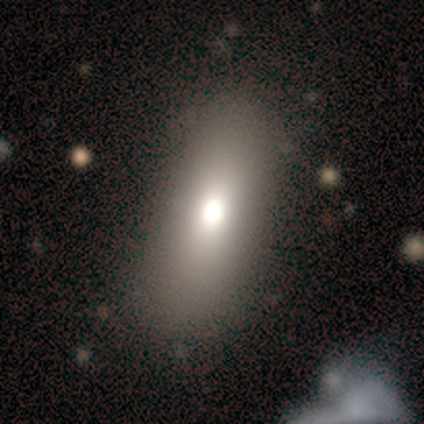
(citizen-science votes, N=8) smooth_or_featured: smooth (p=0.75) [alt: star or artifact p=0.25]
how_rounded: in between (p=0.83) [alt: cigar-shaped p=0.17]
merging: none (p=1.00)